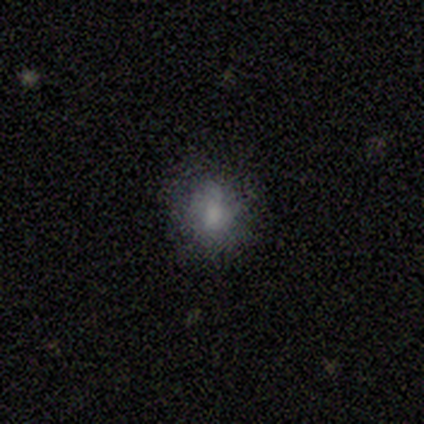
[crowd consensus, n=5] Q: Smooth or featured?
A: smooth (100%)
Q: How rounded?
A: round (80%); runner-up: cigar-shaped (20%)
Q: Merging?
A: none (80%); runner-up: minor disturbance (20%)